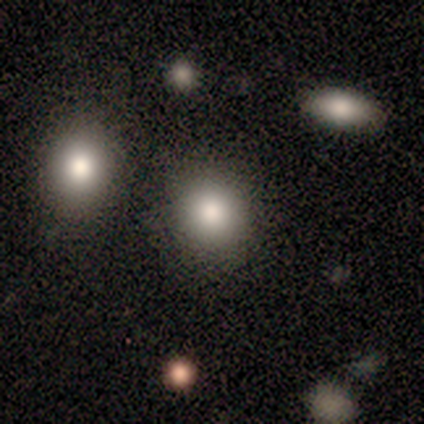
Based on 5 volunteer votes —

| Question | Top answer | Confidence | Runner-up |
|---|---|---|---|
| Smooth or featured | smooth | 60% | featured or disk (40%) |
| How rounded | round | 100% | — |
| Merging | none | 80% | merger (20%) |